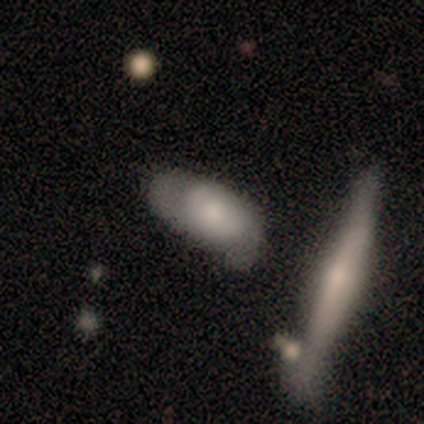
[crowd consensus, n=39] This appears to be a smooth galaxy with no disk features (64%) that is in between round and cigar-shaped (88%). Merging: none (46%).